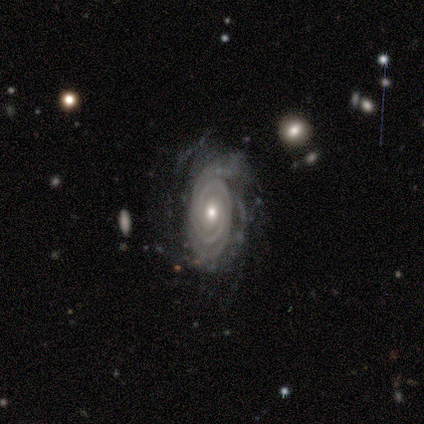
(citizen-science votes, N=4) Smooth or featured? featured or disk (100%)
Edge-on disk? no (100%)
Bar? no (100%)
Spiral arms? yes (100%)
Spiral winding? tight (75%)
Spiral arm count? 2 (50%, tied with can't tell)
Bulge size? small (75%)
Merging? none (100%)